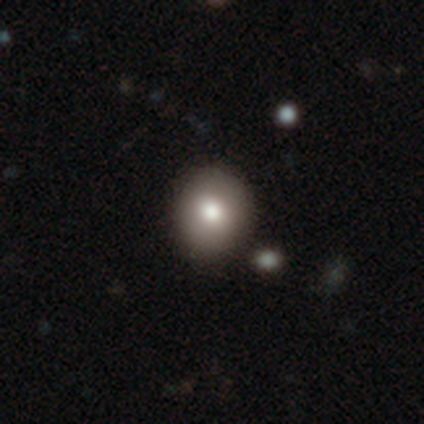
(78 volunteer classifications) smooth_or_featured: smooth (p=0.83) [alt: star or artifact p=0.09]
how_rounded: round (p=0.80) [alt: in between p=0.20]
merging: none (p=0.48) [alt: minor disturbance p=0.04]